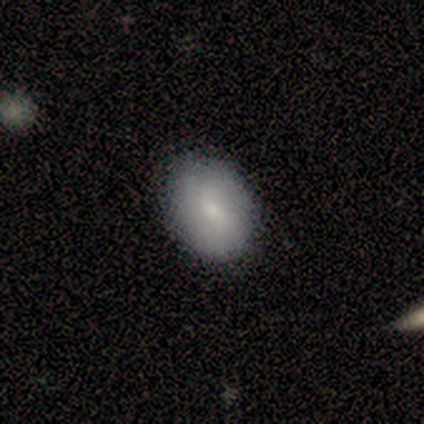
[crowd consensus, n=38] This is possibly a smooth galaxy (58%). How rounded: likely in between (73%). Merging: clearly none (86%).